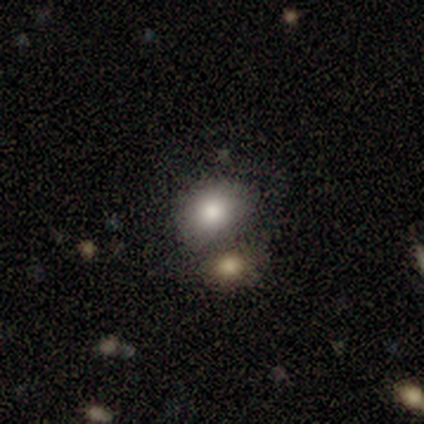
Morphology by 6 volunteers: Smooth or featured? 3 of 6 (50%) said smooth. How rounded? 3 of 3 (100%) said in between. Merging? 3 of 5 (60%) said merger.